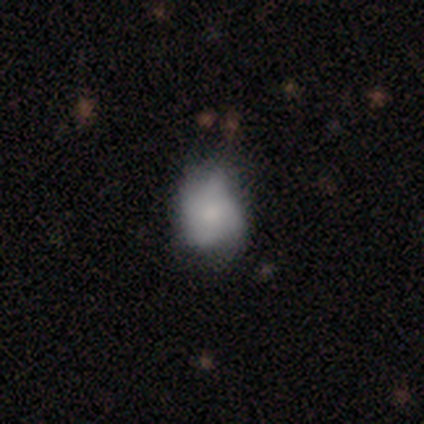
smooth 75%, featured or disk 25%, star or artifact 0%. Down the decision tree: how rounded — round (83%); merging — none (38%, tied with minor disturbance).